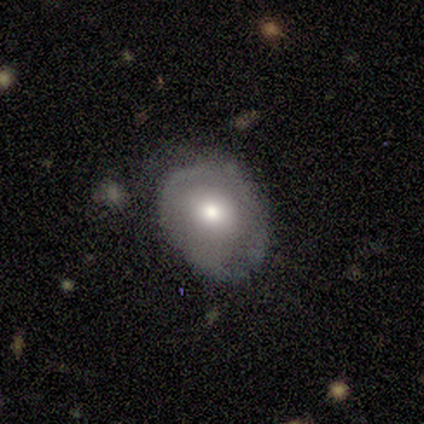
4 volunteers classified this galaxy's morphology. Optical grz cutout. It shows a featured or disk galaxy (75%) with no bar (100%), no spiral arms (100%) and a large central bulge (50%, tied with moderate). Merging: none (50%, tied with minor disturbance).